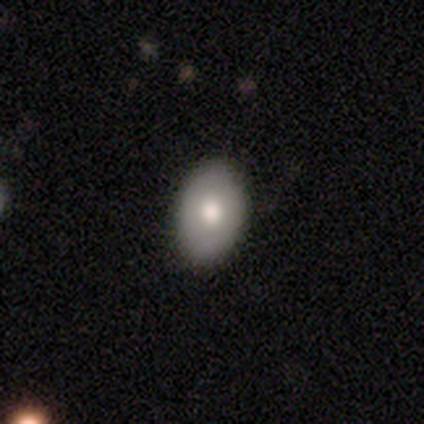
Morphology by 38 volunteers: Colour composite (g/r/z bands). It shows a smooth galaxy with no disk features (61%) that is in between round and cigar-shaped (87%). Merging: none (80%).